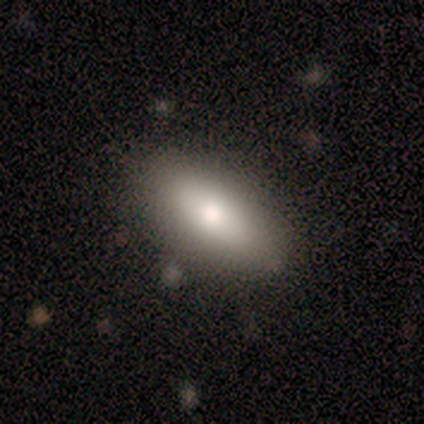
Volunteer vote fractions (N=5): A smooth galaxy with no disk features (60%) that is in between round and cigar-shaped (67%). Merging: none (100%).